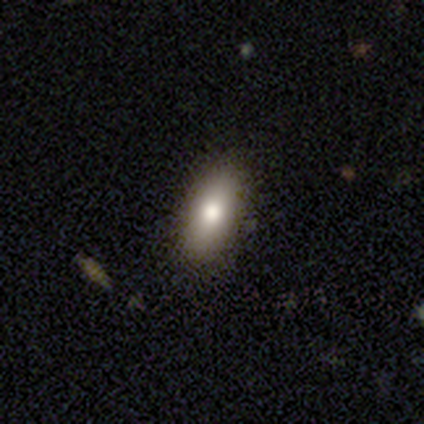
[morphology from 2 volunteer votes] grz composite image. It shows a smooth galaxy with no disk features (100%) that is in between round and cigar-shaped (100%). Merging: none (50%, tied with minor disturbance).